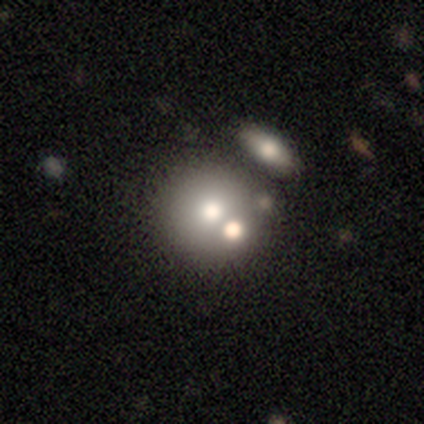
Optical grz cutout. It shows a featured or disk galaxy (60%) with no bar (100%), no spiral arms (100%) and a large central bulge (67%). Merging: none (80%).